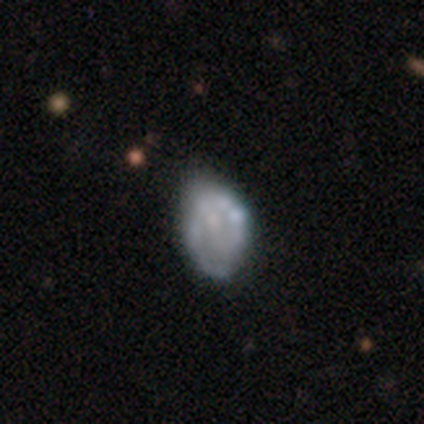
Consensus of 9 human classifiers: Q: Smooth or featured?
A: smooth (56%); runner-up: featured or disk (33%)
Q: How rounded?
A: in between (60%); runner-up: round (40%)
Q: Merging?
A: minor disturbance (50%); runner-up: none (38%)